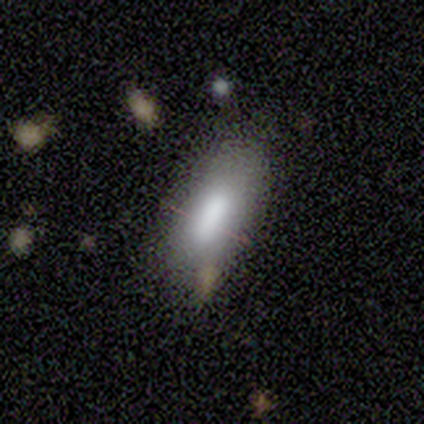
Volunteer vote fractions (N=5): Smooth or featured? smooth (80%)
How rounded? in between (100%)
Merging? none (50%)